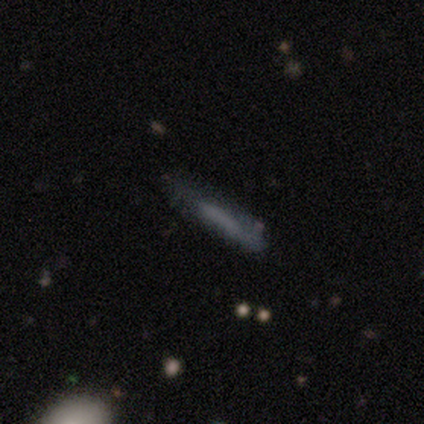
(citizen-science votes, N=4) A smooth galaxy with no disk features (75%) that is cigar-shaped (100%).

Vote fractions:
- Smooth or featured? smooth: 75% / featured or disk: 25% / star or artifact: 0%
- How rounded? cigar-shaped: 100% / round: 0% / in between: 0%
- Merging? none: 100% / minor disturbance: 0% / major disturbance: 0% / merger: 0%